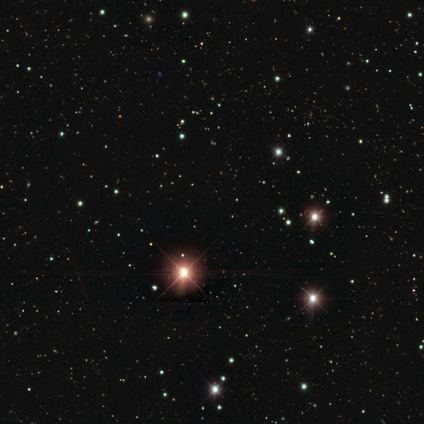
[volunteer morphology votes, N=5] Q: Smooth or featured?
A: star or artifact (100%)